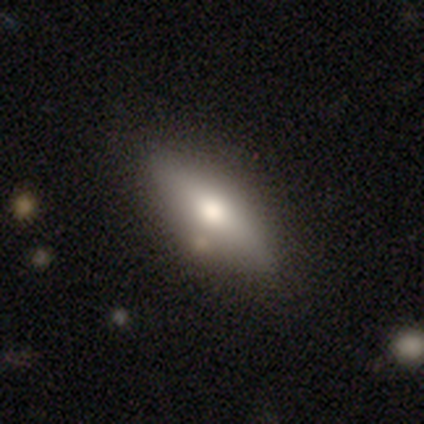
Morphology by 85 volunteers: Overall: smooth (60%; featured or disk 35%). How rounded: in between (51%; cigar-shaped 49%). Merging: none (81%).